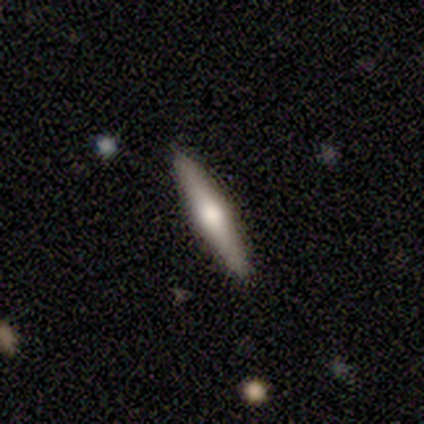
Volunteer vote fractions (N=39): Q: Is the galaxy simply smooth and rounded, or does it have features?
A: featured or disk — 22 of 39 (56%).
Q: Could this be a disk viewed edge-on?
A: yes — 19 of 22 (86%).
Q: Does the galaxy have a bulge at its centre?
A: rounded — 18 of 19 (95%).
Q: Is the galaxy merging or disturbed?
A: none — 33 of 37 (89%).